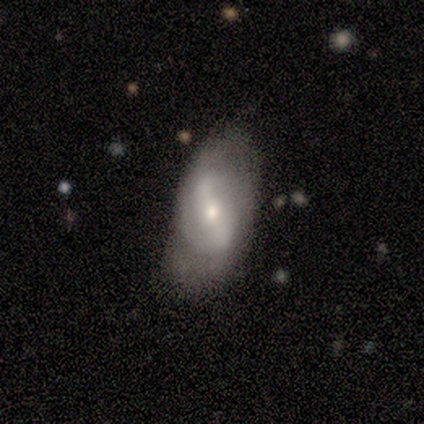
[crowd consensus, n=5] Smooth or featured: featured or disk — 80% (smooth — 20%)
Edge-on disk: no — 100%
Bar: strong — 50% (tied with weak — 50%)
Spiral arms: yes — 50% (tied with no — 50%)
Spiral winding: medium — 100%
Spiral arm count: 2 — 100%
Bulge size: moderate — 50% (tied with small — 50%)
Merging: none — 80% (major disturbance — 20%)